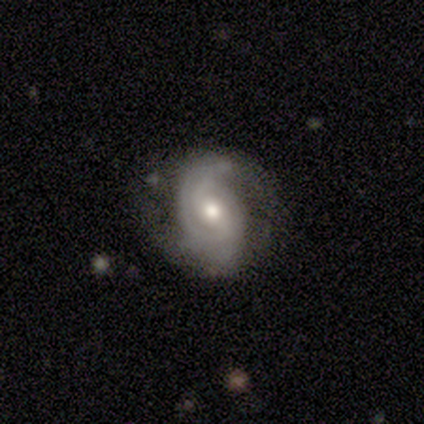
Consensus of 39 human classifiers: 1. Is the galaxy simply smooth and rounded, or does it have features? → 87% featured or disk, 13% smooth, 0% star or artifact.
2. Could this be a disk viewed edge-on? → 91% no, 9% yes.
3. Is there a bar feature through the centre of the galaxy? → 61% no, 35% weak, 3% strong.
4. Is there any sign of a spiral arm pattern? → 90% yes, 10% no.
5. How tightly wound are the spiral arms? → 39% tight, 32% medium, 29% loose.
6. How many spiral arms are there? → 68% 2, 14% 1, 11% can't tell, 7% 3, 0% 4, 0% more than 4.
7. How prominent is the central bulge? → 58% moderate, 26% small, 10% large, 6% dominant, 0% none.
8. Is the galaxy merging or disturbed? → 77% none, 13% major disturbance, 10% minor disturbance, 0% merger.